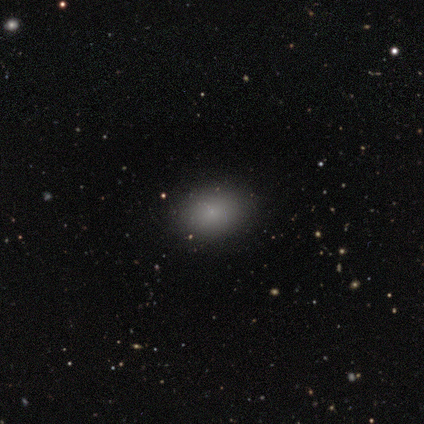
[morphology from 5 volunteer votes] type=star or artifact (60%).